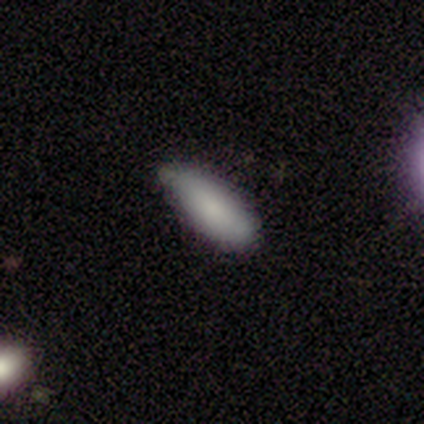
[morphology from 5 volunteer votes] Overall: smooth (80%). How rounded: in between (75%). Merging: none (50%, tied with minor disturbance).